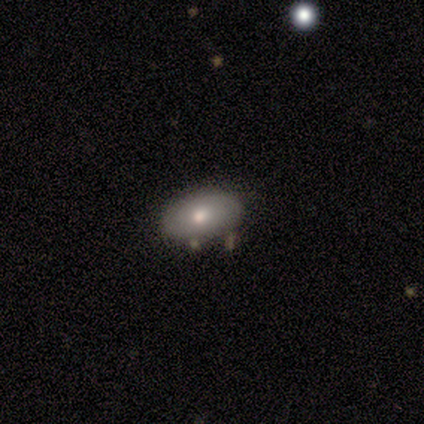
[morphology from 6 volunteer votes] Volunteers were most divided on "smooth or featured" (2-way tie): smooth: 50%, featured or disk: 50%, star or artifact: 0%. More confident: how rounded — in between (100%); merging — none (50%).